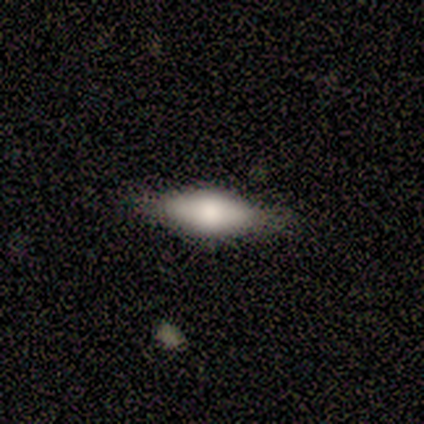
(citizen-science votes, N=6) Smooth or featured?
  - smooth: 83% *
  - featured or disk: 17%
  - star or artifact: 0%
How rounded?
  - in between: 80% *
  - cigar-shaped: 20%
  - round: 0%
Merging?
  - none: 67% *
  - minor disturbance: 33%
  - major disturbance: 0%
  - merger: 0%